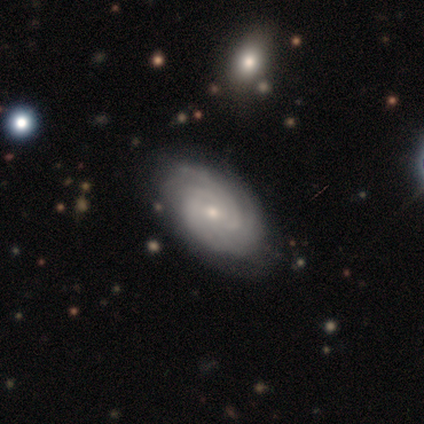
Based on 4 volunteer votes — Volunteers were most divided on "spiral winding" (2-way tie): tight: 50%, loose: 50%, medium: 0%; "spiral arm count" (2-way tie): 3: 50%, can't tell: 50%, 1: 0%, 2: 0%, 4: 0%, more than 4: 0%; "bulge size" (2-way tie): moderate: 50%, small: 50%, dominant: 0%, large: 0%, none: 0%. More confident: smooth or featured — featured or disk (100%); edge-on disk — no (100%); spiral arms — yes (100%); merging — none (100%); bar — no (75%).